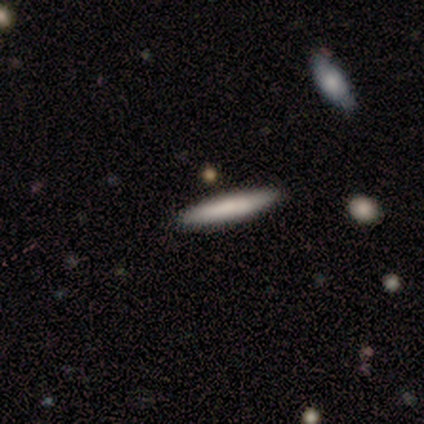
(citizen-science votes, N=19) smooth-or-featured: smooth: 84% | featured or disk: 11% | star or artifact: 5%
  how-rounded: cigar-shaped: 100% | round: 0% | in between: 0%
  merging: none: 94% | minor disturbance: 6% | major disturbance: 0% | merger: 0%